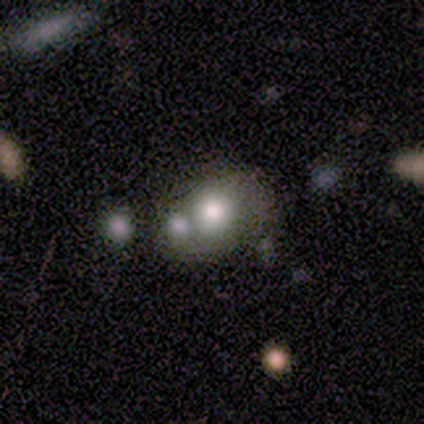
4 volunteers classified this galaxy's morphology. Smooth or featured: smooth — 50% (tied with featured or disk — 50%)
How rounded: round — 50% (tied with in between — 50%)
Merging: merger — 100%